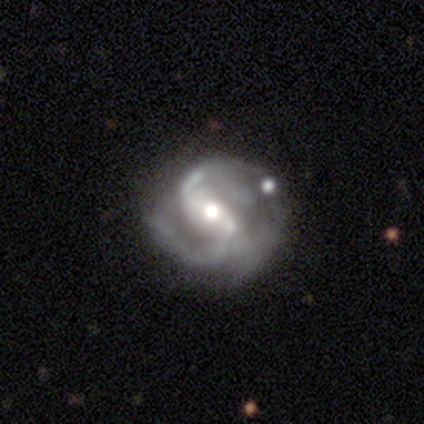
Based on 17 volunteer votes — Smooth or featured: featured or disk — 94% (smooth — 6%)
Edge-on disk: no — 100%
Bar: weak — 62% (strong — 38%)
Spiral arms: yes — 94% (no — 6%)
Spiral winding: medium — 53% (tight — 27%)
Spiral arm count: 2 — 80% (3 — 20%)
Bulge size: moderate — 75% (large — 19%)
Merging: none — 53% (minor disturbance — 29%)